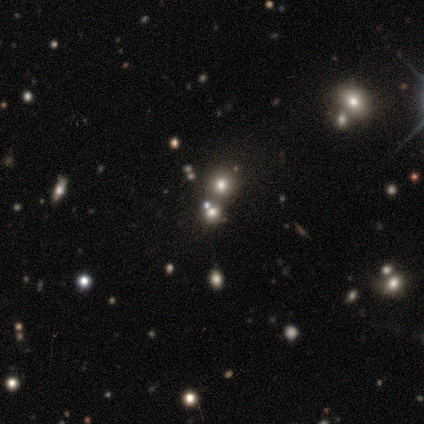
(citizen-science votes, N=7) This is possibly a star or artifact rather than a galaxy (57%).